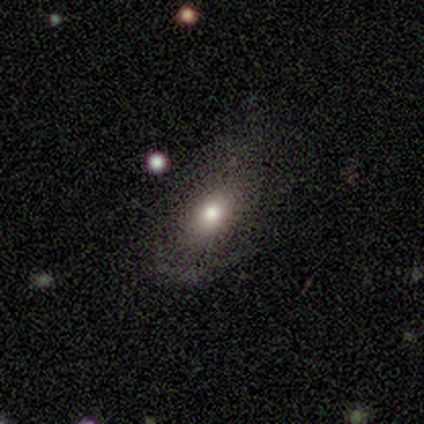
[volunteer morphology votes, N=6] smooth-or-featured: smooth: 83% | featured or disk: 17% | star or artifact: 0%
  how-rounded: in between: 60% | round: 40% | cigar-shaped: 0%
  merging: none: 67% | minor disturbance: 33% | major disturbance: 0% | merger: 0%